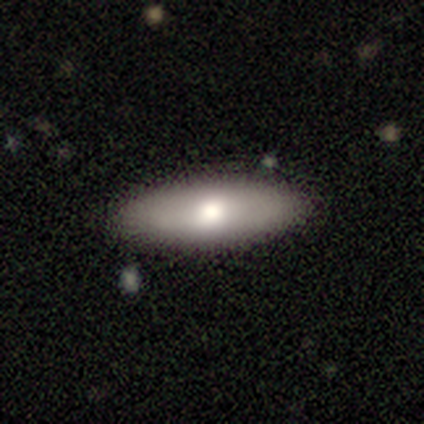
This is likely a smooth galaxy (68%). How rounded: likely in between (70%). Merging: clearly none (88%).